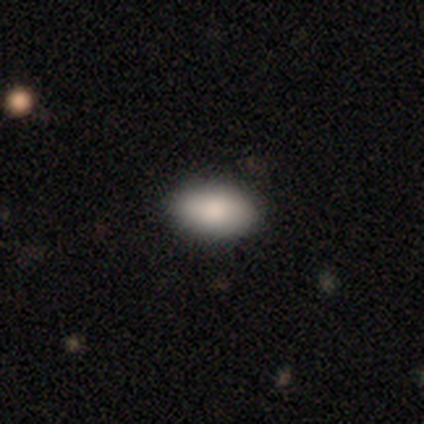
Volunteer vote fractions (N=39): smooth 82%, star or artifact 10%, featured or disk 8%. Down the decision tree: how rounded — in between (91%); merging — none (86%).